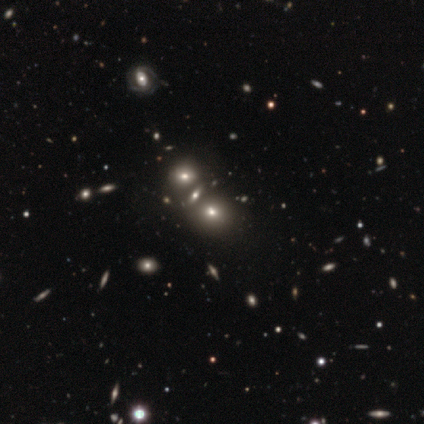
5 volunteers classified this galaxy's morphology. smooth-or-featured: smooth: 100% | featured or disk: 0% | star or artifact: 0%
  how-rounded: round: 60% | in between: 20% | cigar-shaped: 20%
  merging: merger: 60% | none: 40% | minor disturbance: 0% | major disturbance: 0%